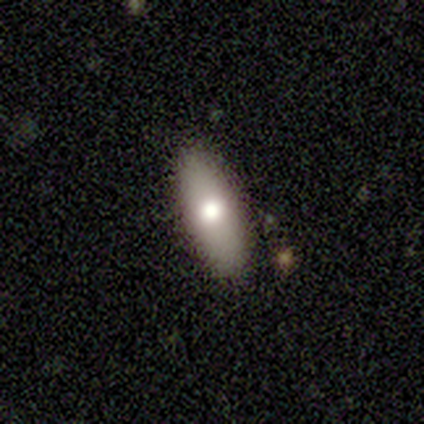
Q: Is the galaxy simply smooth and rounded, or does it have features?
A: smooth — 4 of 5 (80%).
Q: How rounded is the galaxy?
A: cigar-shaped — 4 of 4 (100%).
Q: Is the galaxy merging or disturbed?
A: none — 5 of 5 (100%).